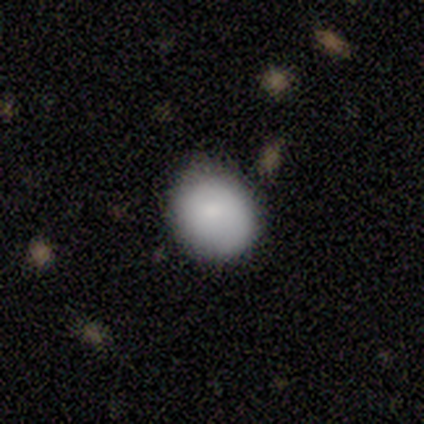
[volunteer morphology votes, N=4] smooth-or-featured: smooth: 75% | featured or disk: 25% | star or artifact: 0%
  how-rounded: round: 100% | in between: 0% | cigar-shaped: 0%
  merging: none: 100% | minor disturbance: 0% | major disturbance: 0% | merger: 0%